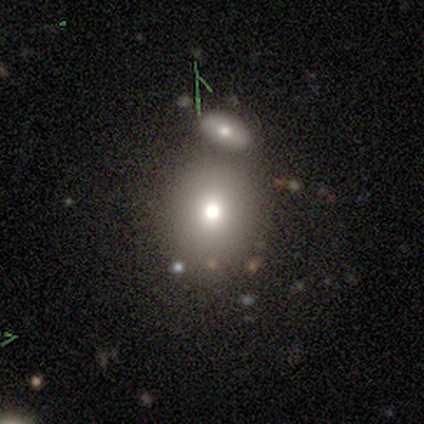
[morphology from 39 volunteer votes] Overall: smooth (72%). How rounded: round (75%). Merging: none (59%; merger 22%).